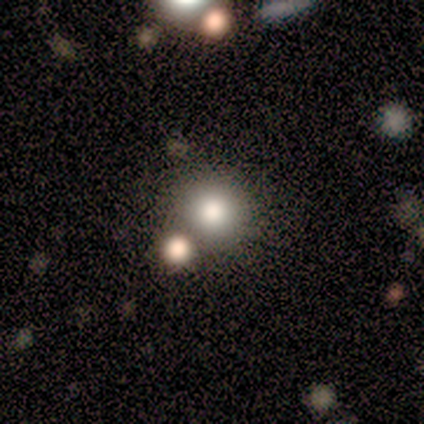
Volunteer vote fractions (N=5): Smooth or featured? 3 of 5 (60%) said smooth. How rounded? 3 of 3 (100%) said round. Merging? 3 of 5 (60%) said none.